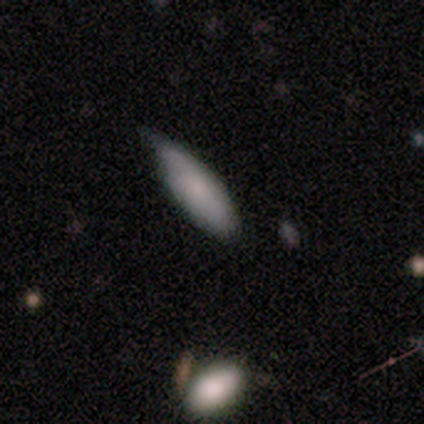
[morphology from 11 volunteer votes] Smooth or featured: smooth — 82% (star or artifact — 18%)
How rounded: cigar-shaped — 56% (in between — 44%)
Merging: minor disturbance — 67% (none — 22%)